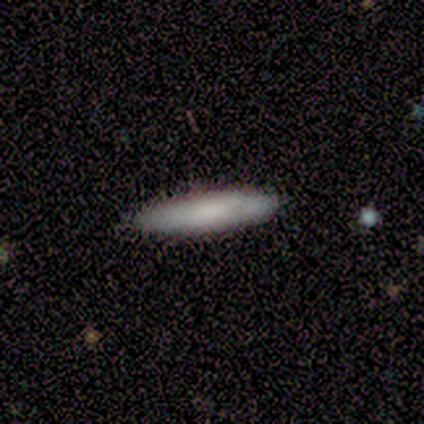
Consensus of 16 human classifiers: This is likely a smooth galaxy (75%). How rounded: clearly cigar-shaped (92%). Merging: clearly none (88%).